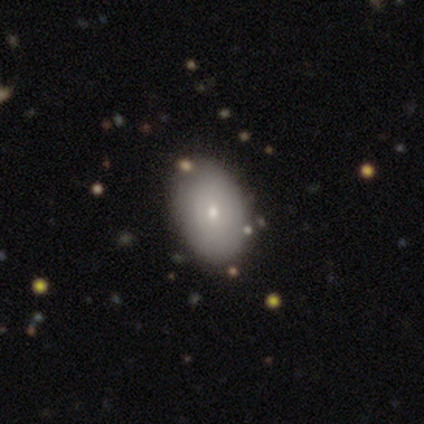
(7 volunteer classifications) smooth_or_featured: smooth (p=0.71) [alt: featured or disk p=0.14]
how_rounded: in between (p=0.80) [alt: round p=0.20]
merging: none (p=1.00)